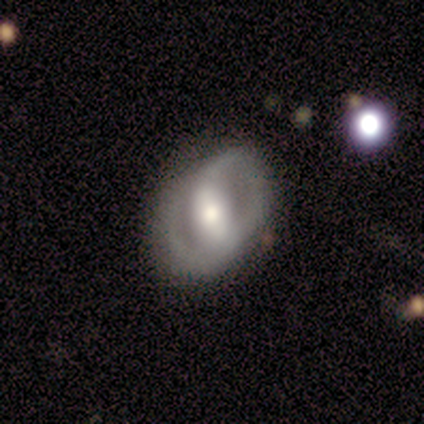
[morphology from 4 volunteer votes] A featured or disk galaxy (75%) with a strong bar (33%, tied with weak and no), 2 (100%) tight (33%, tied with medium and loose) spiral arms (100%) and a moderate central bulge (100%). Merging: none (75%).